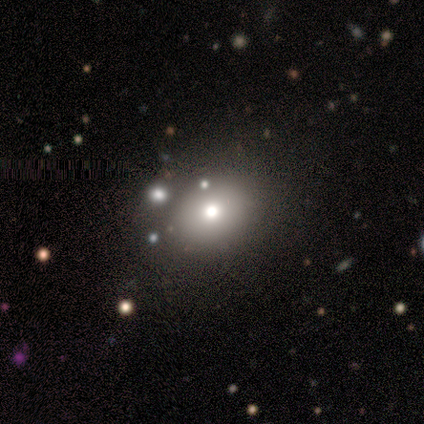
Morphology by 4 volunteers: Volunteers were most divided on "how rounded": in between: 67%, round: 33%, cigar-shaped: 0%. More confident: smooth or featured — smooth (75%); merging — none (67%).